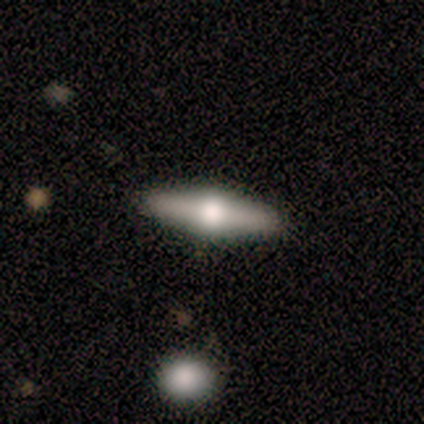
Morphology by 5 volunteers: type=featured or disk (60%); edge-on=yes (100%); edge-on bulge=rounded (100%); merging=none (75%).